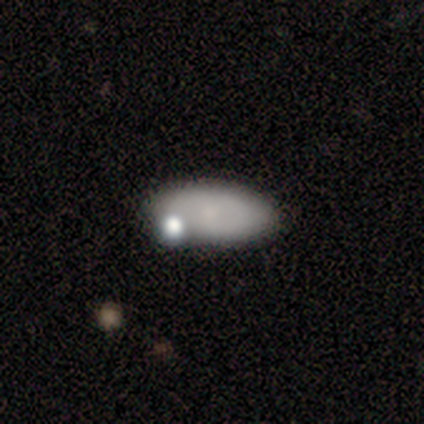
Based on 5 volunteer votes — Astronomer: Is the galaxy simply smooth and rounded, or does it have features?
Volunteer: smooth — 60% (runner-up: featured or disk, 40%).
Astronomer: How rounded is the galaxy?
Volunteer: in between — 100%.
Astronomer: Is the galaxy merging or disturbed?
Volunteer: none — 100%.